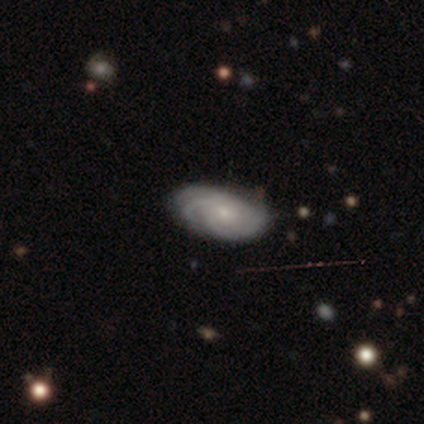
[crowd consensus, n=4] Smooth or featured: featured or disk — 100%
Edge-on disk: no — 100%
Bar: no — 75% (weak — 25%)
Spiral arms: yes — 100%
Spiral winding: tight — 50% (medium — 25%)
Spiral arm count: can't tell — 75% (4 — 25%)
Bulge size: small — 75% (moderate — 25%)
Merging: none — 100%